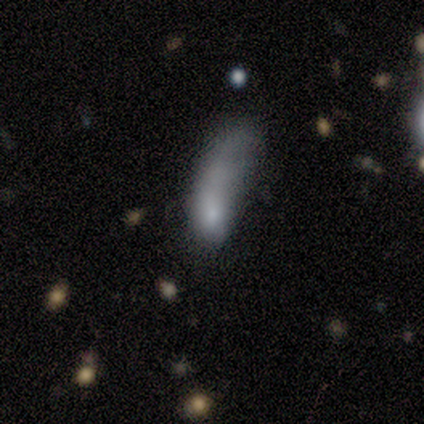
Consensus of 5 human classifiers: Smooth or featured? smooth (80%)
How rounded? cigar-shaped (75%)
Merging? major disturbance (80%)